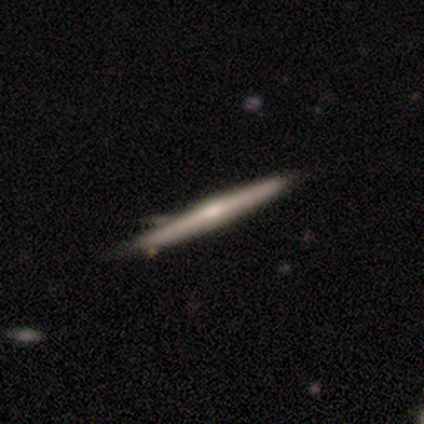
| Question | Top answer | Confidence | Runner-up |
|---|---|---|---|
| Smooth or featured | featured or disk | 75% | smooth (25%) |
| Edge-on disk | yes | 100% | — |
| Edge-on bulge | rounded | 100% | — |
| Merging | none | 100% | — |